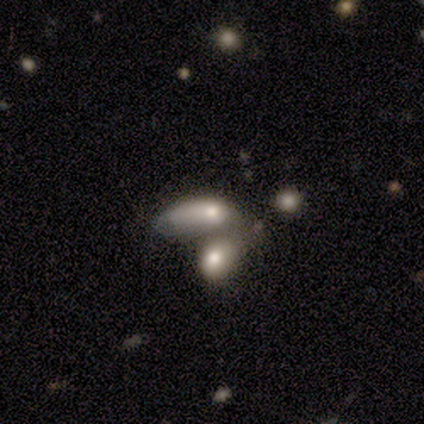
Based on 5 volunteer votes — This is clearly a smooth galaxy (80%). How rounded: likely in between (75%). Merging: clearly merger (80%).